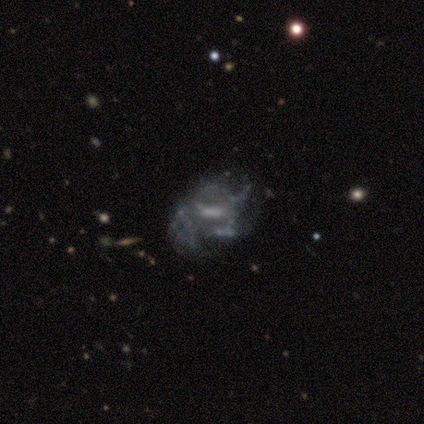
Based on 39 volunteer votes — Smooth or featured? featured or disk (74%)
Edge-on disk? no (97%)
Bar? no (46%)
Spiral arms? no (79%)
Bulge size? moderate (36%, tied with none)
Merging? major disturbance (34%)